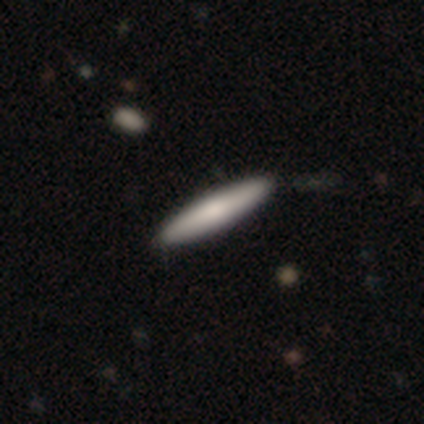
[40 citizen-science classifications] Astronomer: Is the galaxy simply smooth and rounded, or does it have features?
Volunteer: smooth — 68%.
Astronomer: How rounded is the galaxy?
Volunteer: cigar-shaped — 81%.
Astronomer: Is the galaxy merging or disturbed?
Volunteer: none — 44%.